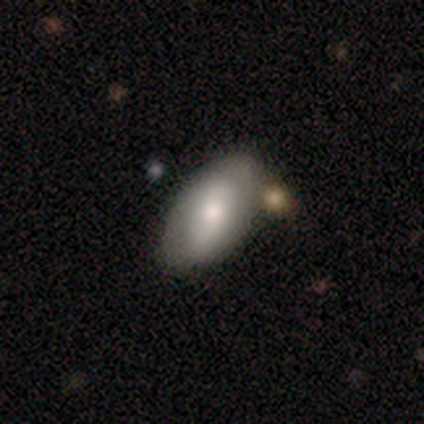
Volunteers were most divided on "merging": none: 57%, merger: 28%, minor disturbance: 2%, major disturbance: 2%. More confident: how rounded — in between (100%); smooth or featured — smooth (67%).